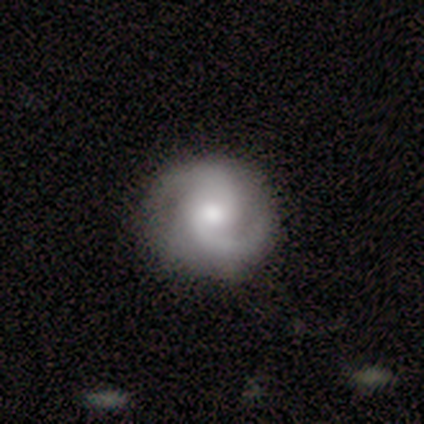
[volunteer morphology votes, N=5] A featured or disk galaxy (100%) with a weak bar (60%), 2 (100%) medium (60%) spiral arms (100%) and a moderate central bulge (100%). Merging: none (80%).